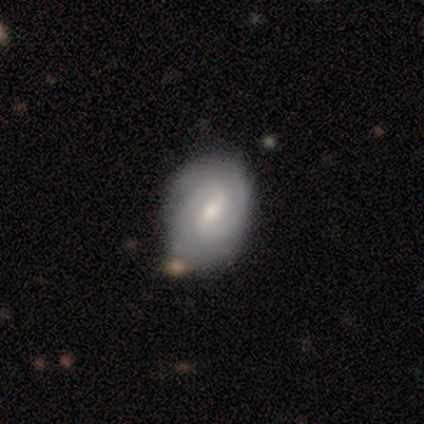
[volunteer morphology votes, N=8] smooth-or-featured: featured or disk: 88% | star or artifact: 12% | smooth: 0%
  disk-edge-on: no: 100% | yes: 0%
    bar: weak: 57% | no: 29% | strong: 14%
    has-spiral-arms: yes: 100% | no: 0%
      spiral-winding: tight: 71% | medium: 29% | loose: 0%
      spiral-arm-count: 2: 100% | 1: 0% | 3: 0% | 4: 0% | more than 4: 0% | can't tell: 0%
    bulge-size: small: 57% | moderate: 43% | dominant: 0% | large: 0% | none: 0%
  merging: none: 100% | minor disturbance: 0% | major disturbance: 0% | merger: 0%